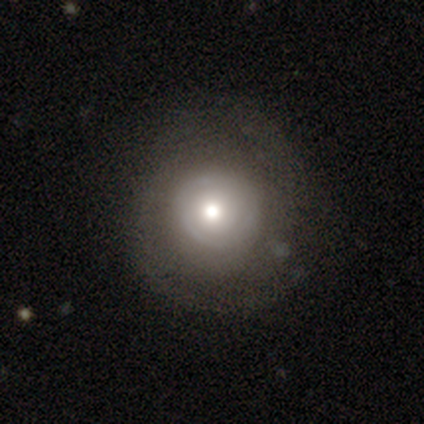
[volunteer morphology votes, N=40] Q: Smooth or featured?
A: featured or disk (60%); runner-up: smooth (35%)
Q: Edge-on disk?
A: no (100%)
Q: Bar?
A: no (88%); runner-up: weak (12%)
Q: Spiral arms?
A: yes (50%); tied with: no (50%)
Q: Spiral winding?
A: tight (58%); runner-up: loose (25%)
Q: Spiral arm count?
A: 1 (33%); tied with: can't tell (33%)
Q: Bulge size?
A: moderate (71%); runner-up: large (21%)
Q: Merging?
A: none (74%); runner-up: minor disturbance (21%)